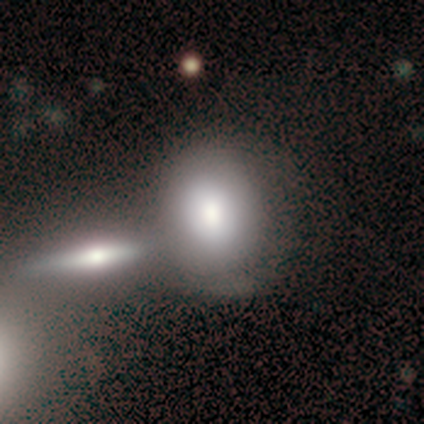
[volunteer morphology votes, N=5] Overall: featured or disk (60%; smooth 40%). Edge-on disk: no (67%; yes 33%). Bar: no (100%). Spiral arms: yes (50%, tied with no). Spiral arm count: 1 (100%). Spiral winding: loose (100%). Bulge size: large (50%, tied with moderate). Merging: none (40%, tied with merger).